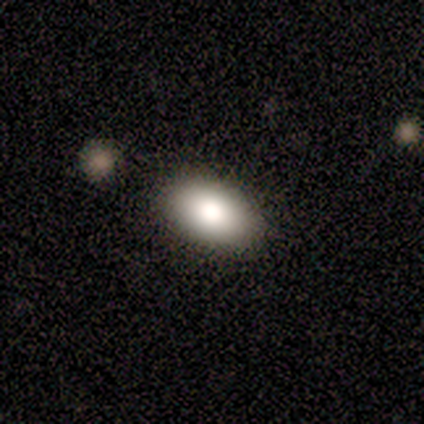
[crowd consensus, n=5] Smooth or featured: smooth — 100%
How rounded: in between — 100%
Merging: none — 100%